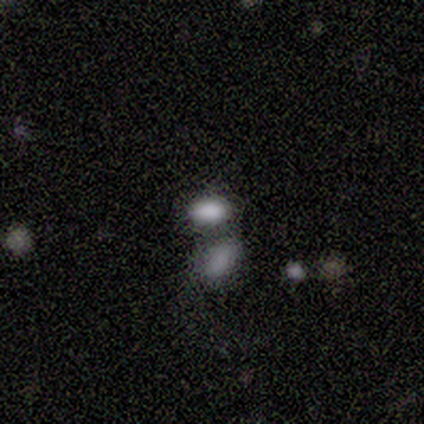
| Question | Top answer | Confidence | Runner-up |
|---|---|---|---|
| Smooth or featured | smooth | 100% | — |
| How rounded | in between | 100% | — |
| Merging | none | 40% | tied: merger (40%) |